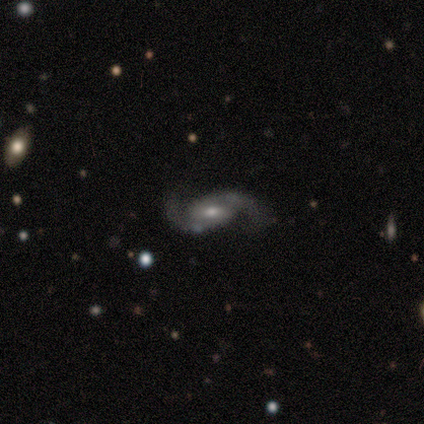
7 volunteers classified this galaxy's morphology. type=featured or disk (86%); edge-on=no (100%); bar=weak (50%); spiral arms=yes (100%); winding=loose (50%); arm count=2 (100%); bulge=moderate (67%); merging=none (50%).